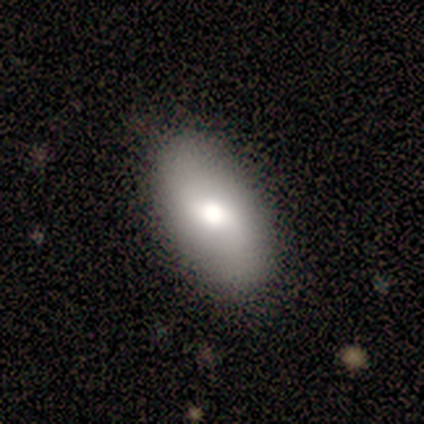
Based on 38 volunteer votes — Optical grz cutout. It shows a smooth galaxy with no disk features (66%) that is in between round and cigar-shaped (92%). Merging: none (87%).